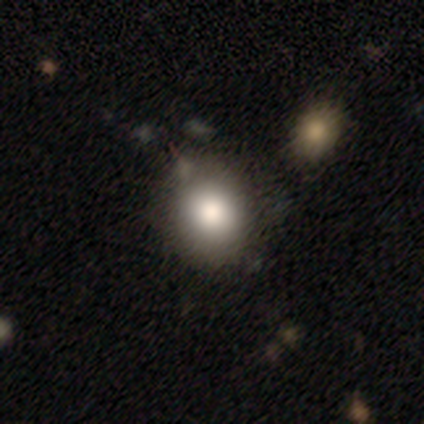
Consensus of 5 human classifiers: Volunteers were most divided on "how rounded": round: 75%, in between: 25%, cigar-shaped: 0%. More confident: smooth or featured — smooth (80%); merging — none (80%).